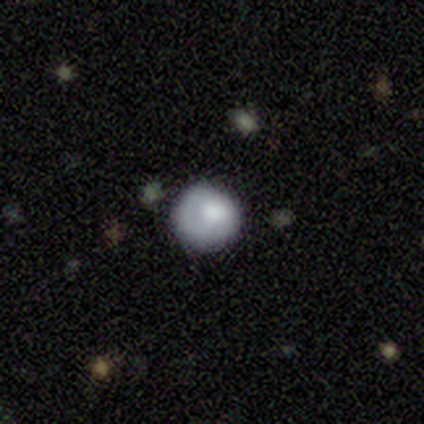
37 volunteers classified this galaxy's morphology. smooth-or-featured: smooth: 73% | featured or disk: 22% | star or artifact: 5%
  how-rounded: round: 93% | in between: 7% | cigar-shaped: 0%
  merging: none: 69% | minor disturbance: 20% | major disturbance: 11% | merger: 0%